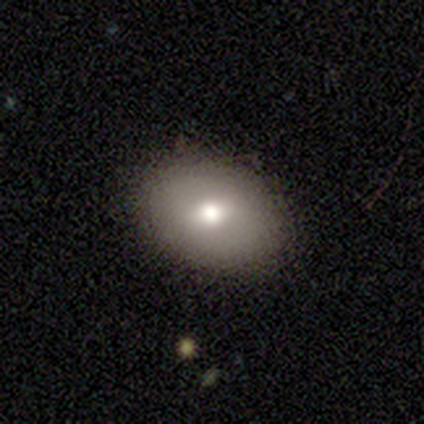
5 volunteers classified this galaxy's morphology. Q: Smooth or featured?
A: smooth (80%); runner-up: star or artifact (20%)
Q: How rounded?
A: in between (75%); runner-up: round (25%)
Q: Merging?
A: none (100%)